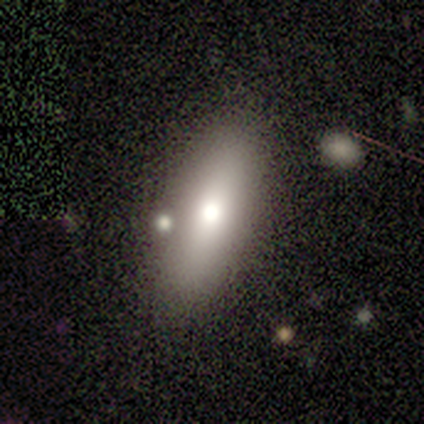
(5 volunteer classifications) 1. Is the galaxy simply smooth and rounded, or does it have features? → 60% smooth, 40% featured or disk, 0% star or artifact.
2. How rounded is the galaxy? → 67% in between, 33% cigar-shaped, 0% round.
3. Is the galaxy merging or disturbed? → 100% none, 0% minor disturbance, 0% major disturbance, 0% merger.